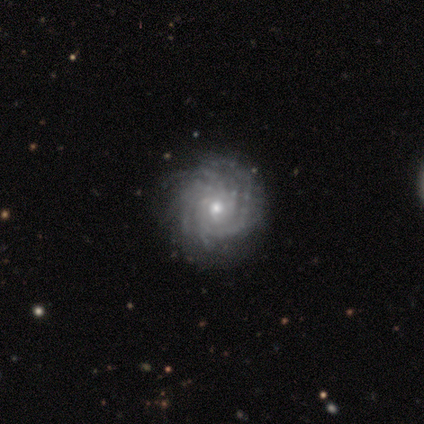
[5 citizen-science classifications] A featured or disk galaxy (100%) with no bar (60%), more than 4 (100%) tight (80%) spiral arms (100%) and a small central bulge (60%). Merging: none (80%).